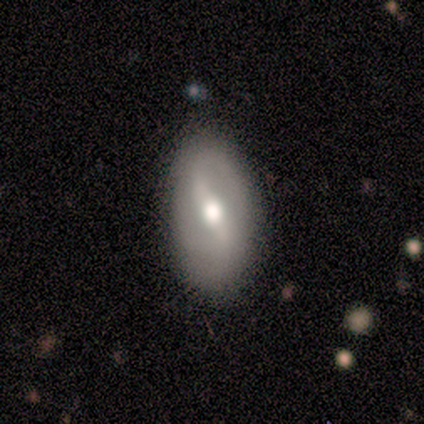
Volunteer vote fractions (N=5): This appears to be a featured or disk galaxy (80%) with a weak bar (75%), 2 (100%) medium (50%, tied with loose) spiral arms (50%, tied with no) and a moderate central bulge (100%). Merging: none (75%).